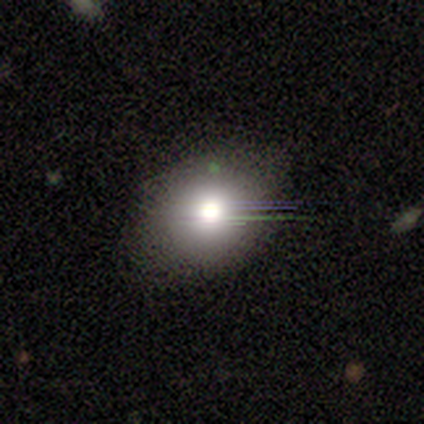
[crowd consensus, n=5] Smooth or featured? smooth (60%)
How rounded? round (67%)
Merging? none (100%)